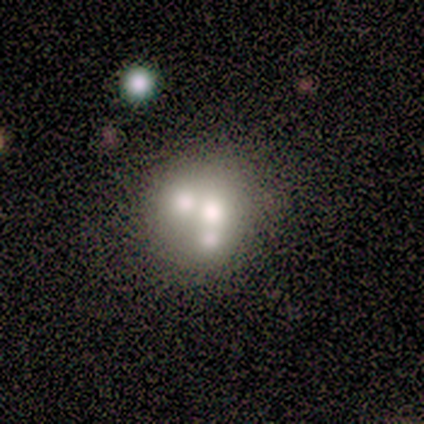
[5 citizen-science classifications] Q: Smooth or featured?
A: featured or disk (60%); runner-up: smooth (40%)
Q: Edge-on disk?
A: no (100%)
Q: Bar?
A: no (100%)
Q: Spiral arms?
A: no (100%)
Q: Bulge size?
A: large (33%); tied with: moderate (33%); none (33%)
Q: Merging?
A: none (40%); runner-up: minor disturbance (20%)